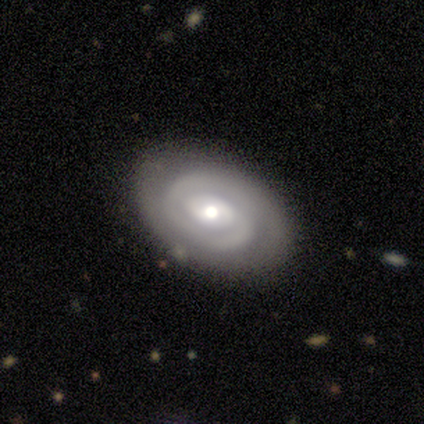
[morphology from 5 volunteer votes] smooth_or_featured: featured or disk (p=0.80) [alt: star or artifact p=0.20]
disk_edge_on: no (p=1.00)
bar: no (p=0.75) [alt: strong p=0.25]
has_spiral_arms: yes (p=0.75) [alt: no p=0.25]
spiral_winding: tight (p=0.67) [alt: loose p=0.33]
spiral_arm_count: 1 (p=0.67) [alt: can't tell p=0.33]
bulge_size: moderate (p=0.75) [alt: large p=0.25]
merging: none (p=0.75) [alt: major disturbance p=0.25]